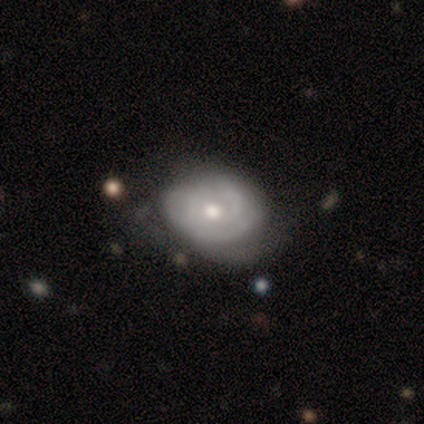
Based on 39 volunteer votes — Volunteers were most divided on "merging": none: 39%, major disturbance: 32%, minor disturbance: 24%, merger: 5%. Remaining: edge-on disk — no (96%); bar — no (85%); spiral arms — yes (69%); smooth or featured — featured or disk (69%); spiral winding — tight (67%); bulge size — moderate (62%); spiral arm count — can't tell (44%).